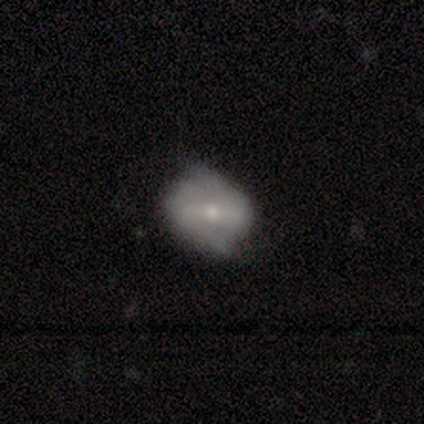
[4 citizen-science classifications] Smooth or featured? smooth (50%, tied with featured or disk)
How rounded? in between (100%)
Merging? none (50%, tied with minor disturbance)